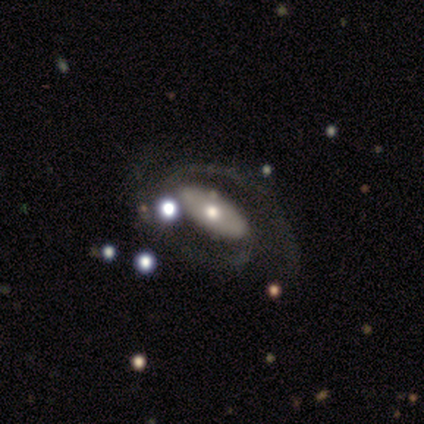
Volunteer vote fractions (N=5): Overall: featured or disk (80%). Edge-on disk: no (100%). Bar: strong (75%). Spiral arms: yes (75%). Spiral arm count: 2 (100%). Spiral winding: medium (67%; tight 33%). Bulge size: small (50%; large 25%). Merging: none (80%).